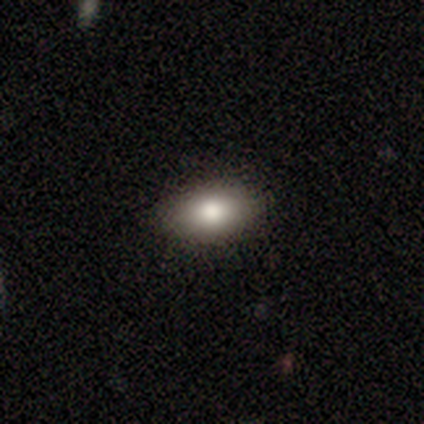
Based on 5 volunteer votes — Morphology: type=smooth (100%); roundness=in between (100%); merging=none (80%).